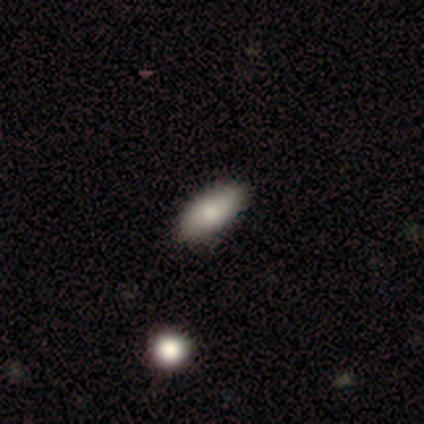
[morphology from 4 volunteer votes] Smooth or featured? smooth (100%)
How rounded? in between (100%)
Merging? none (75%)